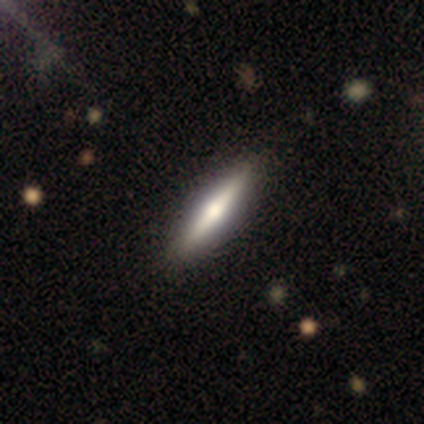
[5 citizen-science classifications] A smooth galaxy with no disk features (80%) that is in between round and cigar-shaped (50%, tied with cigar-shaped).

Vote fractions:
- Smooth or featured? smooth: 80% / featured or disk: 20% / star or artifact: 0%
- How rounded? in between: 50% (tied) / cigar-shaped: 50% (tied) / round: 0%
- Merging? none: 60% / minor disturbance: 40% / major disturbance: 0% / merger: 0%